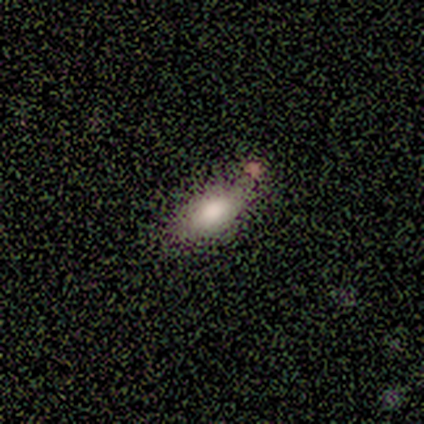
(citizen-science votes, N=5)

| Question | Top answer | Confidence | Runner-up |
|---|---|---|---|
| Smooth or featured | smooth | 80% | featured or disk (20%) |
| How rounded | in between | 100% | — |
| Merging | minor disturbance | 60% | none (40%) |